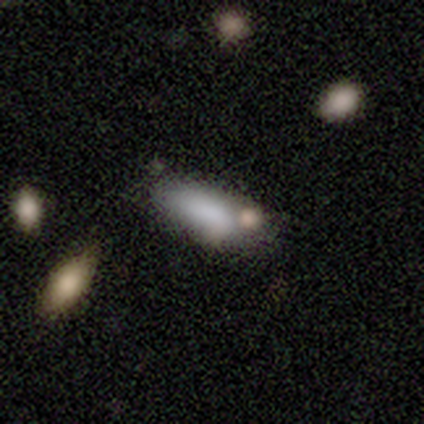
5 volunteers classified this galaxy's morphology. A smooth galaxy with no disk features (60%) that is cigar-shaped (67%).

Vote fractions:
- Smooth or featured? smooth: 60% / featured or disk: 20% / star or artifact: 20%
- How rounded? cigar-shaped: 67% / in between: 33% / round: 0%
- Merging? none: 50% / minor disturbance: 25% / merger: 25% / major disturbance: 0%